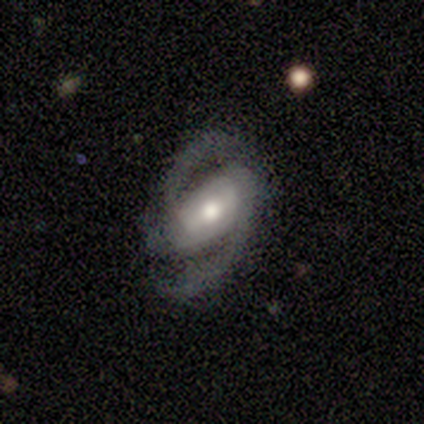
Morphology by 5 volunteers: smooth-or-featured: featured or disk: 100% | smooth: 0% | star or artifact: 0%
  disk-edge-on: no: 100% | yes: 0%
    bar: strong: 40% (tied) | weak: 40% (tied) | no: 20%
    has-spiral-arms: yes: 100% | no: 0%
      spiral-winding: medium: 60% | tight: 20% | loose: 20%
      spiral-arm-count: 2: 80% | 3: 20% | 1: 0% | 4: 0% | more than 4: 0% | can't tell: 0%
    bulge-size: moderate: 60% | large: 40% | dominant: 0% | small: 0% | none: 0%
  merging: none: 100% | minor disturbance: 0% | major disturbance: 0% | merger: 0%